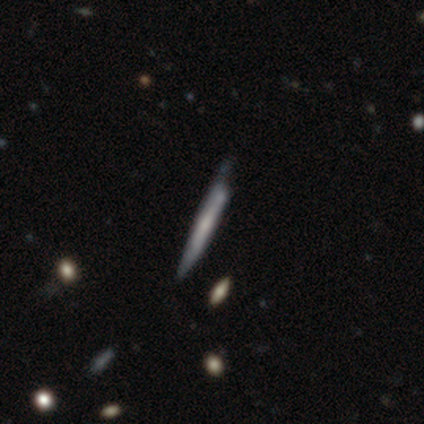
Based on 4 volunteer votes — Morphology: type=smooth (50%, tied with featured or disk); roundness=cigar-shaped (100%); merging=none (75%).